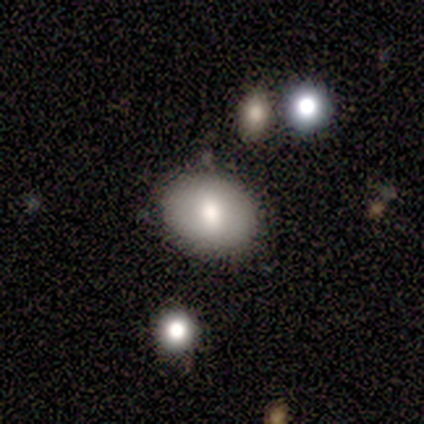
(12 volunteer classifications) This appears to be a smooth galaxy with no disk features (92%) that is in between round and cigar-shaped (73%). Merging: none (82%).